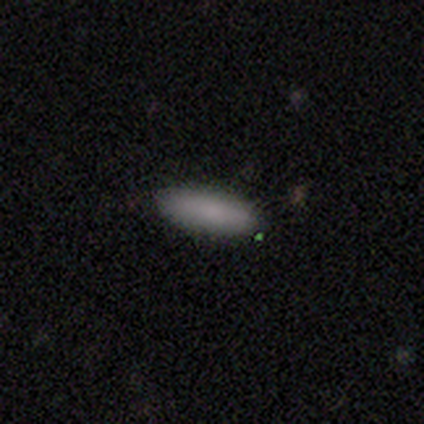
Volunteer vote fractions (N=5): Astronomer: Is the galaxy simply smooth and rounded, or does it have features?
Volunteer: smooth — 80%.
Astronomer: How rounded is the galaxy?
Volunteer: in between — 75%.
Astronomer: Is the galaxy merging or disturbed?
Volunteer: none — 100%.